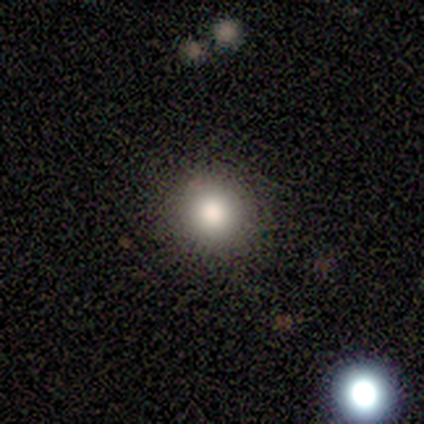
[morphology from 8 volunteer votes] This is clearly a smooth galaxy (100%). How rounded: clearly round (100%). Merging: clearly none (88%).